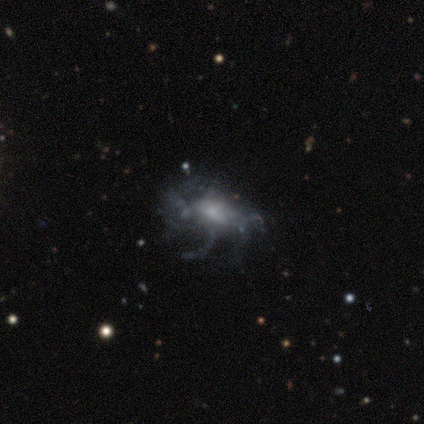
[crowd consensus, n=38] Smooth or featured: featured or disk — 92% (smooth — 5%)
Edge-on disk: no — 94% (yes — 6%)
Bar: no — 76% (weak — 18%)
Spiral arms: yes — 58% (no — 42%)
Spiral winding: loose — 58% (tight — 37%)
Spiral arm count: can't tell — 74% (more than 4 — 16%)
Bulge size: small — 58% (moderate — 27%)
Merging: none — 38% (major disturbance — 32%)